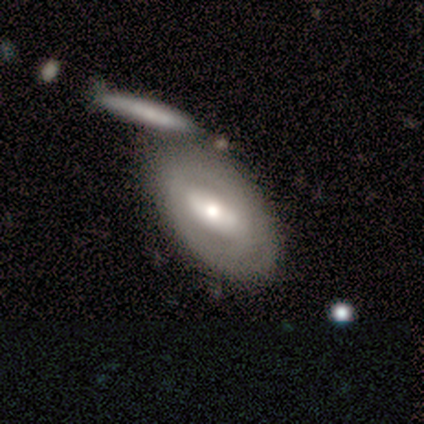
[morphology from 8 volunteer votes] Smooth or featured? smooth (62%)
How rounded? in between (100%)
Merging? none (50%)